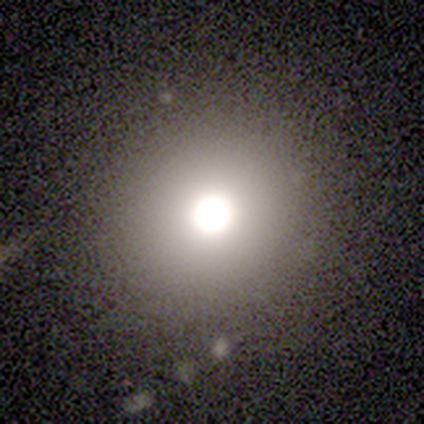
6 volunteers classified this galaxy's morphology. type=smooth (83%); roundness=round (100%); merging=none (100%).